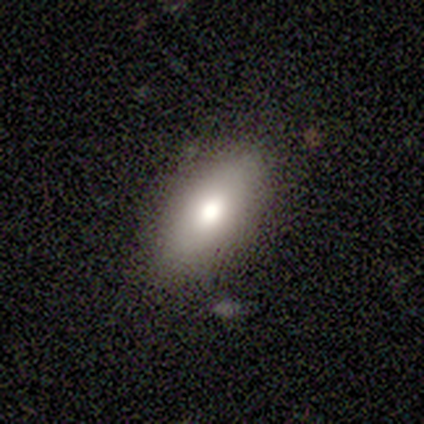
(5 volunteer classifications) Overall: smooth (100%). How rounded: in between (80%). Merging: none (60%; minor disturbance 20%).